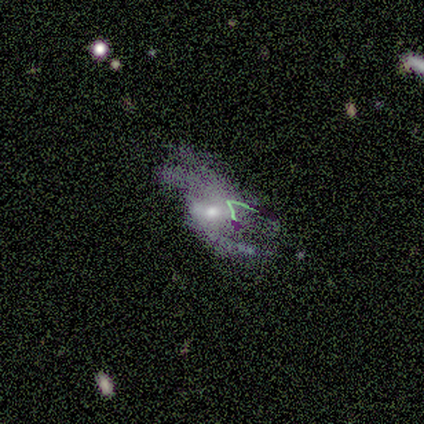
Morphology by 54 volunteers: Smooth or featured? featured or disk (74%)
Edge-on disk? no (98%)
Bar? no (44%)
Spiral arms? yes (87%)
Spiral winding? loose (59%)
Spiral arm count? 2 (65%)
Bulge size? moderate (64%)
Merging? major disturbance (33%)